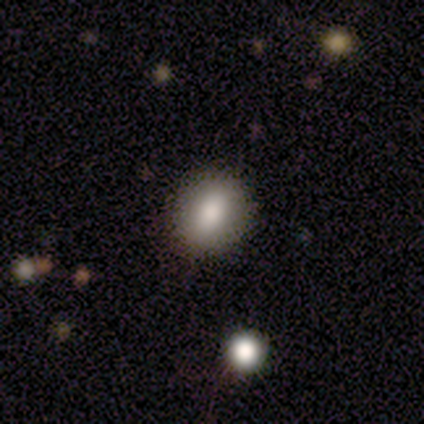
Q: Smooth or featured?
A: smooth (80%); runner-up: star or artifact (20%)
Q: How rounded?
A: round (50%); tied with: in between (50%)
Q: Merging?
A: none (100%)